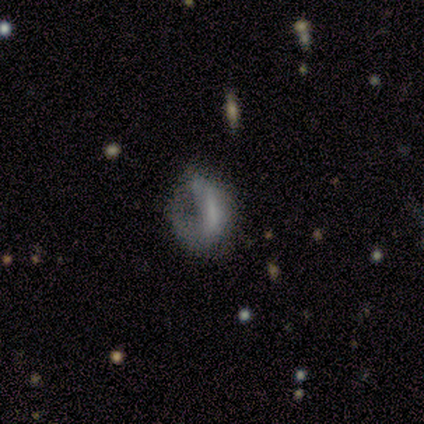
Smooth or featured: featured or disk — 67% (smooth — 33%)
Edge-on disk: no — 100%
Bar: no — 100%
Spiral arms: yes — 50% (tied with no — 50%)
Spiral winding: loose — 100%
Spiral arm count: can't tell — 100%
Bulge size: large — 50% (tied with none — 50%)
Merging: major disturbance — 100%